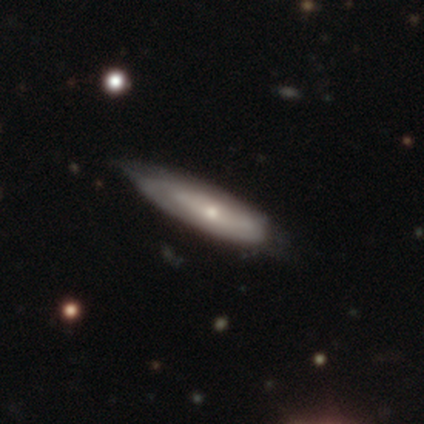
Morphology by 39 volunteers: type=featured or disk (64%); edge-on=yes (52%); edge-on bulge=rounded (77%); merging=none (59%).